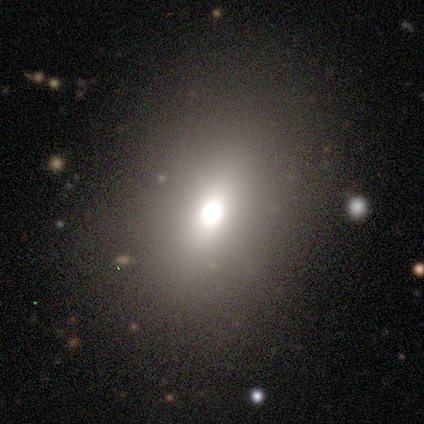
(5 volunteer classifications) smooth 80%, featured or disk 20%, star or artifact 0%. Down the decision tree: how rounded — round (50%, tied with in between); merging — none (100%).